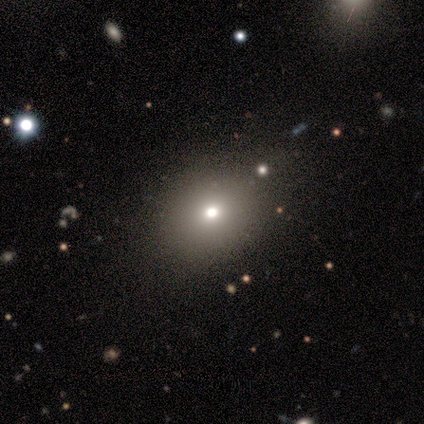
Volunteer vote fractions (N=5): Smooth or featured?
  - smooth: 40% * (tied)
  - star or artifact: 40% * (tied)
  - featured or disk: 20%
How rounded?
  - in between: 100% *
  - round: 0%
  - cigar-shaped: 0%
Merging?
  - none: 67% *
  - minor disturbance: 33%
  - major disturbance: 0%
  - merger: 0%